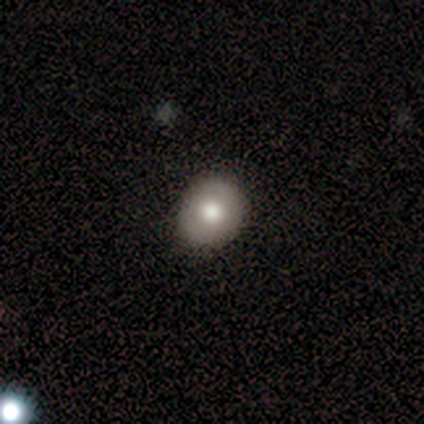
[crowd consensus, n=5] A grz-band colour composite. It shows a smooth galaxy with no disk features (100%) that is round (60%). Merging: none (100%).